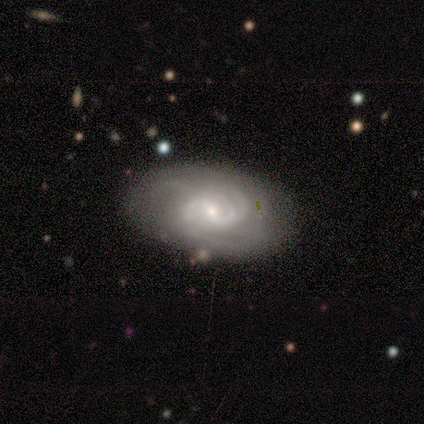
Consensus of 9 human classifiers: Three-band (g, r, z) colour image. It shows a featured or disk galaxy (89%) with a weak bar (62%), 2 (29%, tied with 4) tight (71%) spiral arms (88%) and a small central bulge (75%). Merging: none (100%).